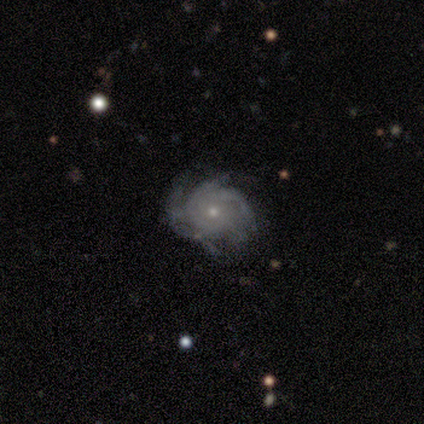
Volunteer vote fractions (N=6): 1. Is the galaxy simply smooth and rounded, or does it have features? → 100% featured or disk, 0% smooth, 0% star or artifact.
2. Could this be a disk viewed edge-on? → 100% no, 0% yes.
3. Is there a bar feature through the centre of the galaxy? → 83% no, 17% weak, 0% strong.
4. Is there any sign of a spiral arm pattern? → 100% yes, 0% no.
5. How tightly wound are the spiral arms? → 67% tight, 33% medium, 0% loose.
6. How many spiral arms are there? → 50% 3, 33% 4, 17% more than 4, 0% 1, 0% 2, 0% can't tell.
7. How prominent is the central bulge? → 83% small, 17% moderate, 0% dominant, 0% large, 0% none.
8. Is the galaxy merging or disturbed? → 67% none, 33% minor disturbance, 0% major disturbance, 0% merger.